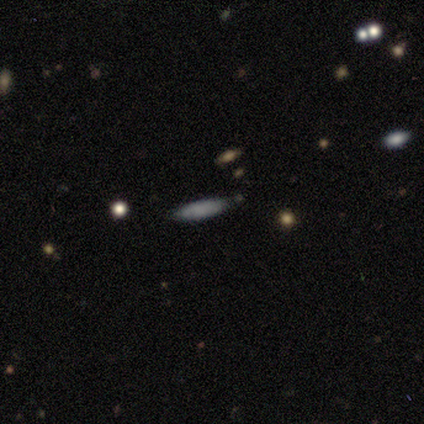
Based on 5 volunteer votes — Smooth or featured? smooth (60%)
How rounded? cigar-shaped (67%)
Merging? none (100%)